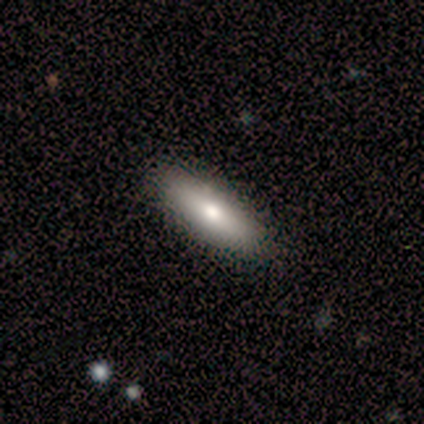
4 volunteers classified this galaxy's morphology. This is likely a smooth galaxy (75%). How rounded: clearly cigar-shaped (100%). Merging: clearly none (100%).